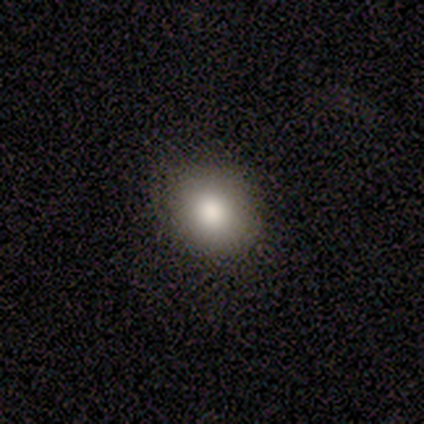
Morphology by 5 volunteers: Smooth or featured? 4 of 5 (80%) said smooth. How rounded? 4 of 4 (100%) said in between. Merging? 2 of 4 (50%, tied with minor disturbance) said none.